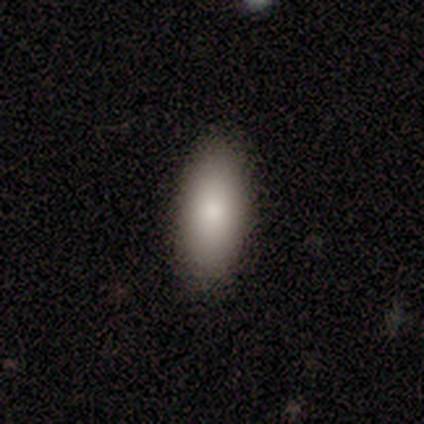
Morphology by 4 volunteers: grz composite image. It shows a smooth galaxy with no disk features (100%) that is in between round and cigar-shaped (100%). Merging: none (100%).